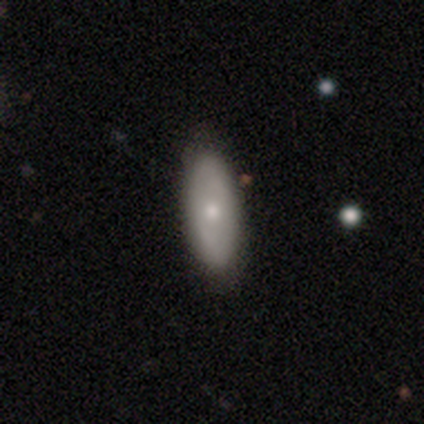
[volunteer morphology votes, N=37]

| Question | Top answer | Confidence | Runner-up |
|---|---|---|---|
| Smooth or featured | smooth | 59% | featured or disk (38%) |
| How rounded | in between | 77% | cigar-shaped (18%) |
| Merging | none | 78% | minor disturbance (14%) |